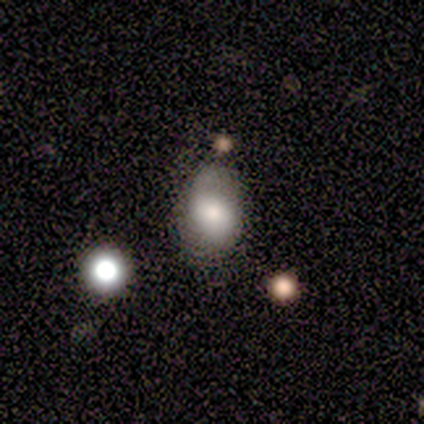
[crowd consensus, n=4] Q: Smooth or featured?
A: smooth (100%)
Q: How rounded?
A: in between (100%)
Q: Merging?
A: minor disturbance (50%); runner-up: none (25%)